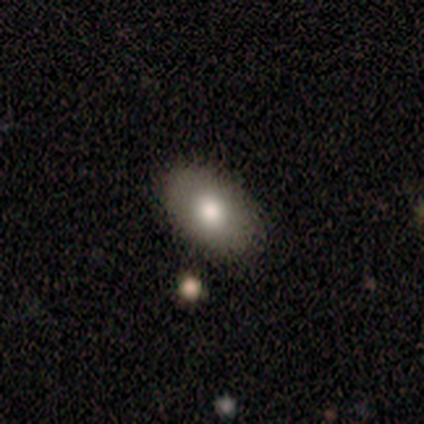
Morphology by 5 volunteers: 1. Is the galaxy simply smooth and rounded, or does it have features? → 80% smooth, 20% star or artifact, 0% featured or disk.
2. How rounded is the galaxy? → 50% round (tied), 50% in between (tied), 0% cigar-shaped.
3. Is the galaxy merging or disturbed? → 75% none, 25% minor disturbance, 0% major disturbance, 0% merger.